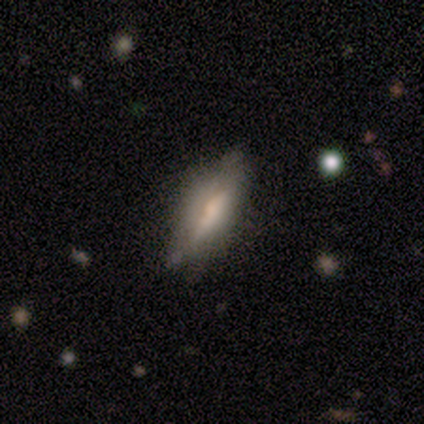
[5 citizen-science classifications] Overall: smooth (80%). How rounded: in between (50%, tied with cigar-shaped). Merging: none (60%; minor disturbance 20%).